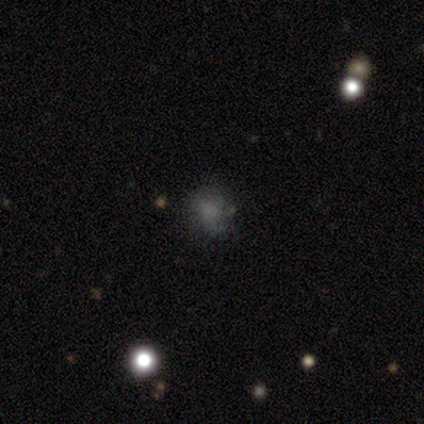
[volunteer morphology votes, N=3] smooth_or_featured: smooth (p=0.67) [alt: star or artifact p=0.33]
how_rounded: round (p=1.00)
merging: none (p=0.50) [tied with: minor disturbance p=0.50]